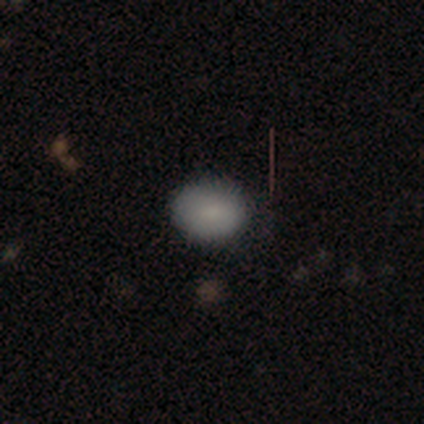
Smooth or featured? smooth (100%)
How rounded? round (50%, tied with in between)
Merging? none (75%)